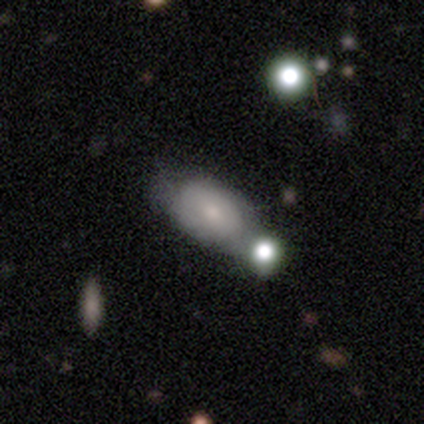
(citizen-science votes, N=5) smooth-or-featured: smooth: 60% | featured or disk: 40% | star or artifact: 0%
  how-rounded: in between: 100% | round: 0% | cigar-shaped: 0%
  merging: none: 60% | minor disturbance: 20% | merger: 20% | major disturbance: 0%